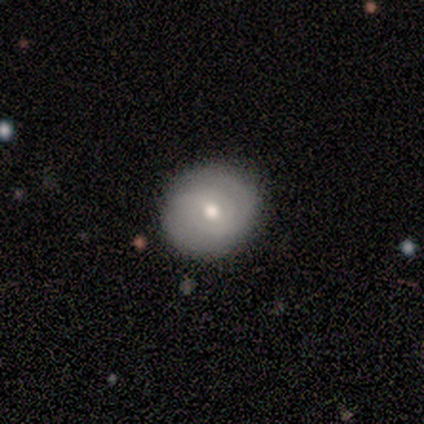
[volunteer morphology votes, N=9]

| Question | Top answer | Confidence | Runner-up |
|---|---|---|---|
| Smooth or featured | smooth | 67% | featured or disk (33%) |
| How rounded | round | 100% | — |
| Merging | none | 100% | — |